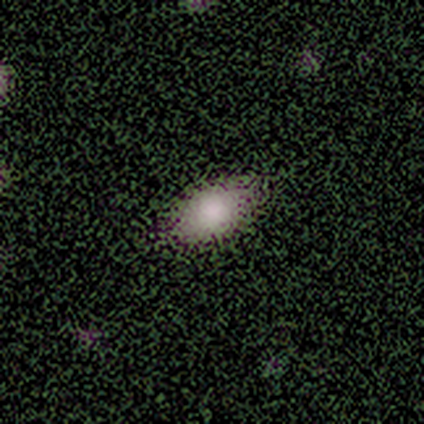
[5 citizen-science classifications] Overall: smooth (80%). How rounded: in between (100%). Merging: none (100%).